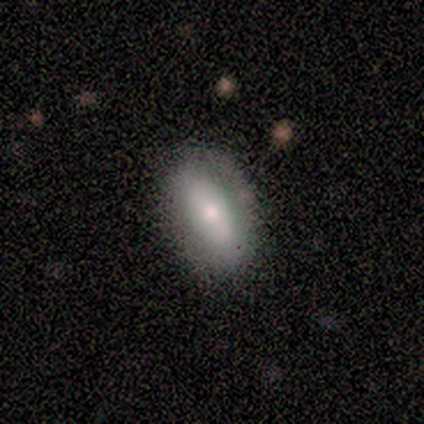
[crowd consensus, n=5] A smooth galaxy with no disk features (40%, tied with featured or disk) that is in between round and cigar-shaped (100%).

Vote fractions:
- Smooth or featured? smooth: 40% (tied) / featured or disk: 40% (tied) / star or artifact: 20%
- How rounded? in between: 100% / round: 0% / cigar-shaped: 0%
- Merging? none: 75% / minor disturbance: 25% / major disturbance: 0% / merger: 0%